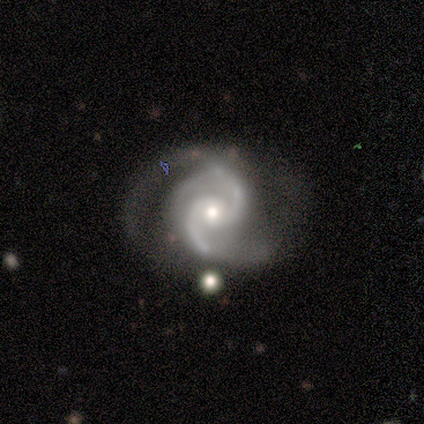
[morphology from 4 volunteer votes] featured or disk 100%, smooth 0%, star or artifact 0%. Down the decision tree: edge-on disk — no (100%); bar — weak (75%); spiral arms — yes (100%); spiral arm count — 2 (100%); spiral winding — medium (75%); bulge size — small (75%); merging — none (100%).